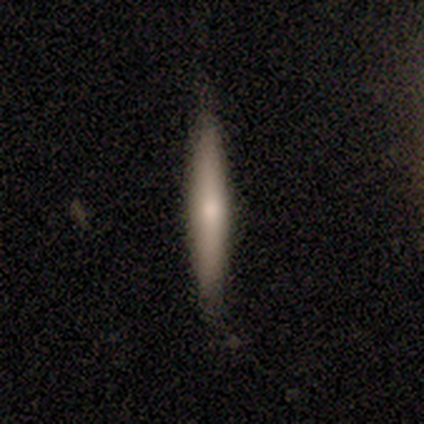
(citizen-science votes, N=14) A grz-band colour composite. It shows a featured or disk galaxy (50%) viewed edge-on (86%) with a rounded central bulge (83%). Merging: none (85%).